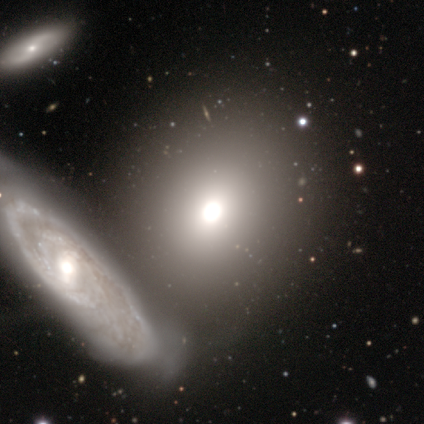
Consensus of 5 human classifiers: Volunteers were most divided on "bar" (3-way tie): strong: 33%, weak: 33%, no: 33%; "merging" (2-way tie): minor disturbance: 40%, merger: 40%, major disturbance: 20%, none: 0%. More confident: edge-on disk — no (100%); spiral arms — no (67%); bulge size — moderate (67%); smooth or featured — featured or disk (60%).